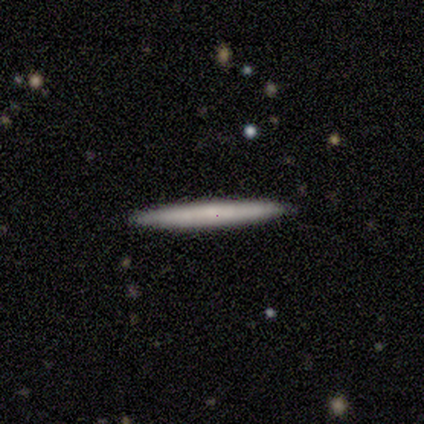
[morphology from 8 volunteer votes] This is likely a smooth galaxy (75%). How rounded: clearly cigar-shaped (100%). Merging: clearly none (100%).